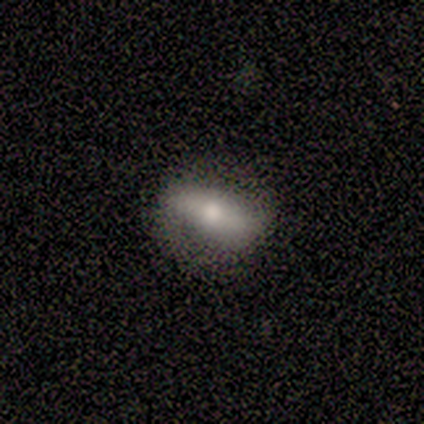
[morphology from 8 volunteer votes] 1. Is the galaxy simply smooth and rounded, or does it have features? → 62% smooth, 25% star or artifact, 12% featured or disk.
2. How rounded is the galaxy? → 100% in between, 0% round, 0% cigar-shaped.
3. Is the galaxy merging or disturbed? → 67% none, 17% minor disturbance, 17% major disturbance, 0% merger.